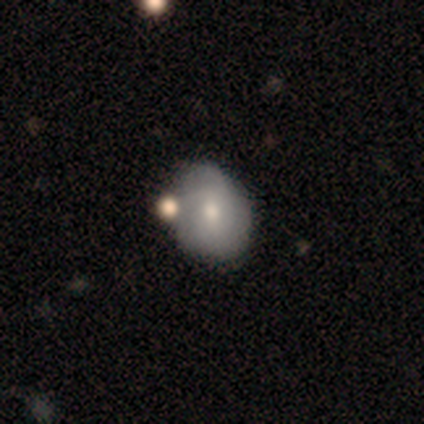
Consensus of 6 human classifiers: Smooth or featured? 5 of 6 (83%) said smooth. How rounded? 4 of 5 (80%) said in between. Merging? 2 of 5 (40%, tied with minor disturbance) said none.